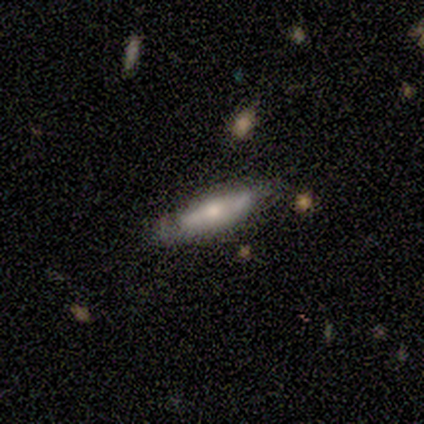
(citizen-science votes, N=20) smooth 50%, featured or disk 45%, star or artifact 5%. Down the decision tree: how rounded — cigar-shaped (80%); merging — none (63%).